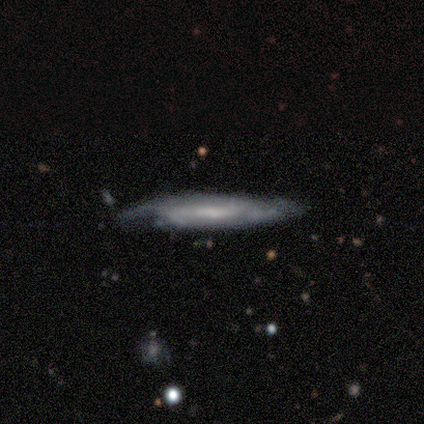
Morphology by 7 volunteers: smooth-or-featured: featured or disk: 86% | smooth: 14% | star or artifact: 0%
  disk-edge-on: yes: 50% (tied) | no: 50% (tied)
    edge-on-bulge: none: 67% | boxy: 33% | rounded: 0%
  merging: none: 86% | minor disturbance: 14% | major disturbance: 0% | merger: 0%